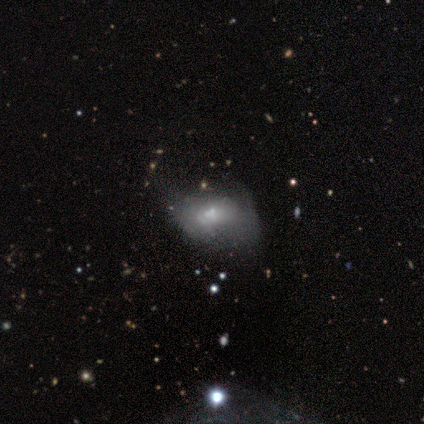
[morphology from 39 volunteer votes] Overall: featured or disk (56%; smooth 31%). Edge-on disk: no (95%). Bar: no (86%). Spiral arms: no (86%). Bulge size: small (67%). Merging: major disturbance (53%; minor disturbance 26%).